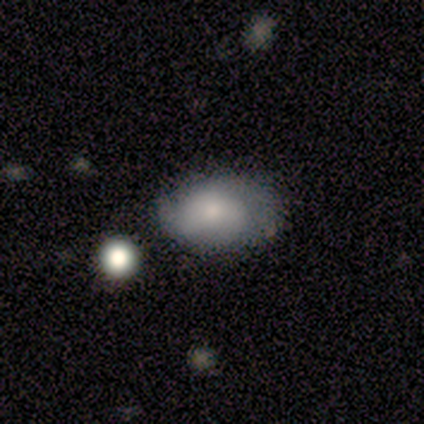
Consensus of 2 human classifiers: This is possibly a smooth galaxy (50%, tied with star or artifact). How rounded: clearly in between (100%). Merging: clearly none (100%).